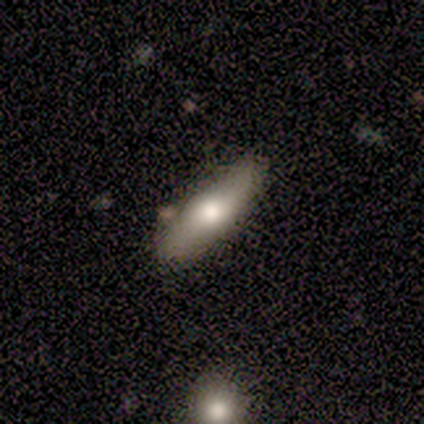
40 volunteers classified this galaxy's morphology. This is likely a smooth galaxy (65%). How rounded: possibly cigar-shaped (54%). Merging: clearly none (82%).